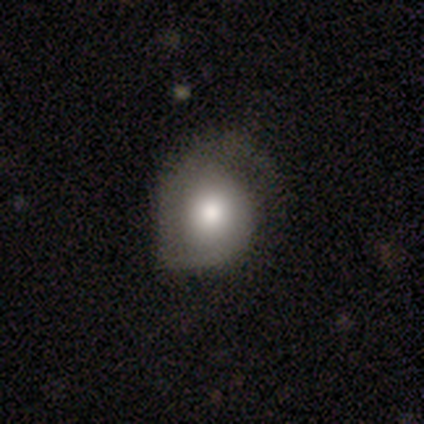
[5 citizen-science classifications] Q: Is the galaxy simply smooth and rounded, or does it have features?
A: smooth — 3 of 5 (60%).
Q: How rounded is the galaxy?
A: in between — 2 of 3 (67%).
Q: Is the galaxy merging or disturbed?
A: minor disturbance — 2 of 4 (50%, tied with major disturbance).